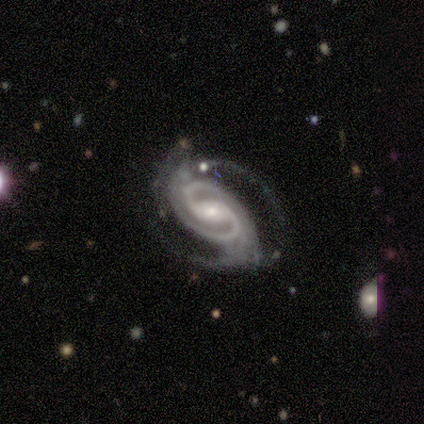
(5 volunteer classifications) featured or disk 100%, smooth 0%, star or artifact 0%. Down the decision tree: edge-on disk — no (100%); bar — weak (60%); spiral arms — yes (100%); spiral arm count — 2 (100%); spiral winding — medium (80%); bulge size — moderate (60%); merging — minor disturbance (60%).